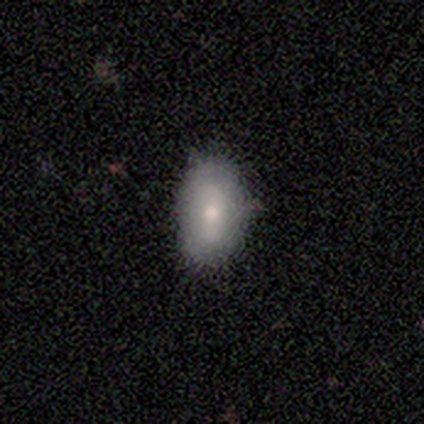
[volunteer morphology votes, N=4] Q: Smooth or featured?
A: smooth (75%); runner-up: star or artifact (25%)
Q: How rounded?
A: in between (100%)
Q: Merging?
A: none (33%); tied with: minor disturbance (33%); major disturbance (33%)